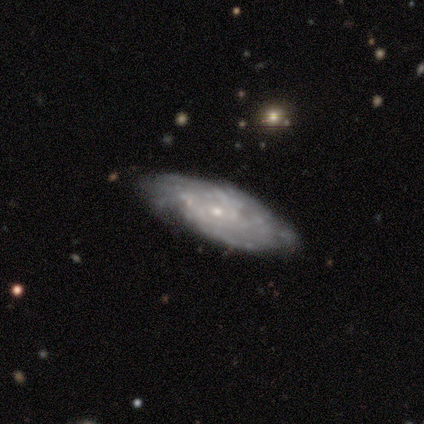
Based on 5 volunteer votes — Morphology: type=featured or disk (100%); edge-on=no (100%); bar=no (80%); spiral arms=yes (80%); winding=tight (75%); arm count=can't tell (50%); bulge=small (80%); merging=none (80%).